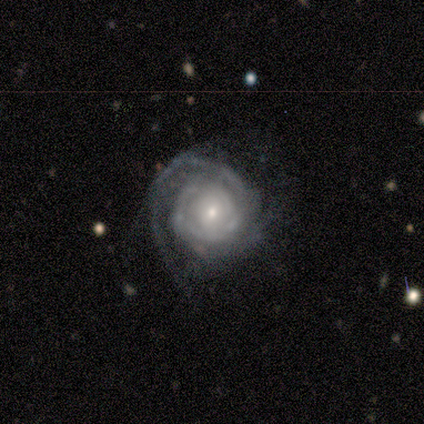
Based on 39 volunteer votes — Smooth or featured?
  - featured or disk: 82% *
  - star or artifact: 10%
  - smooth: 8%
Edge-on disk?
  - no: 100% *
  - yes: 0%
Bar?
  - no: 88% *
  - strong: 6%
  - weak: 6%
Spiral arms?
  - yes: 97% *
  - no: 3%
Spiral winding?
  - tight: 84% *
  - medium: 13%
  - loose: 3%
Spiral arm count?
  - can't tell: 48% *
  - 2: 35%
  - 1: 13%
  - more than 4: 3%
  - 3: 0%
  - 4: 0%
Bulge size?
  - small: 59% *
  - moderate: 28%
  - large: 12%
  - dominant: 0%
  - none: 0%
Merging?
  - none: 43% *
  - minor disturbance: 29%
  - major disturbance: 26%
  - merger: 3%